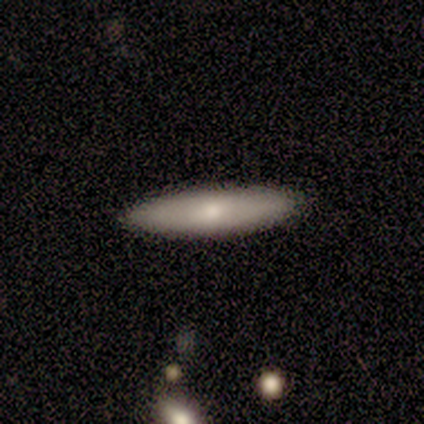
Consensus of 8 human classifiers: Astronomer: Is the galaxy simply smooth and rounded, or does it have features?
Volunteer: smooth — 62%.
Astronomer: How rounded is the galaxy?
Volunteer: cigar-shaped — 100%.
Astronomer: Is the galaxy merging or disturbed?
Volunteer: none — 83%.